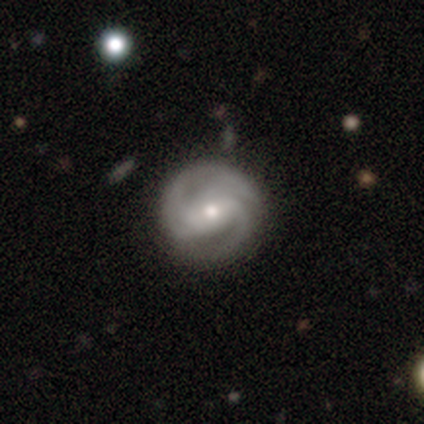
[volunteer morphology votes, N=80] This is clearly a featured or disk galaxy (91%). It is clearly not viewed edge-on (97%). Bar: marginally strong (39%). Spiral arm pattern: clearly yes (99%). Spiral arm count: possibly 2 (50%). Spiral winding: possibly medium (46%). Central bulge: likely moderate (76%). Merging: marginally none (38%).